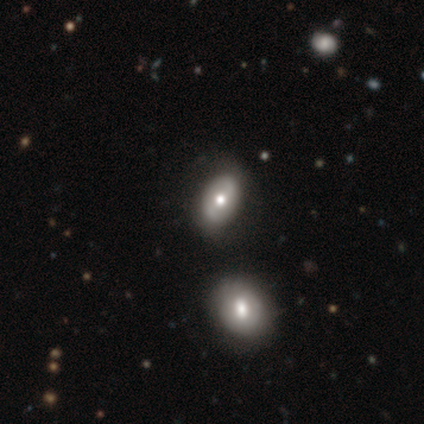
This is marginally a smooth galaxy (40%, tied with featured or disk). How rounded: clearly in between (100%). Merging: likely none (75%).